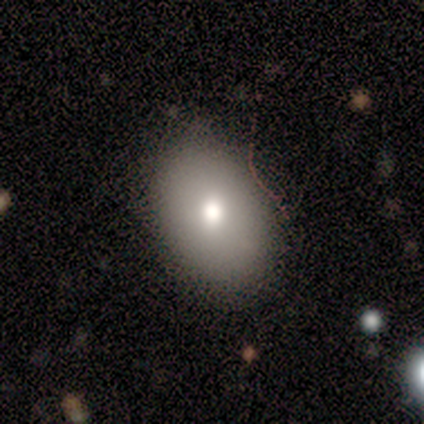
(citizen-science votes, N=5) Q: Smooth or featured?
A: smooth (100%)
Q: How rounded?
A: in between (100%)
Q: Merging?
A: none (60%); runner-up: minor disturbance (40%)